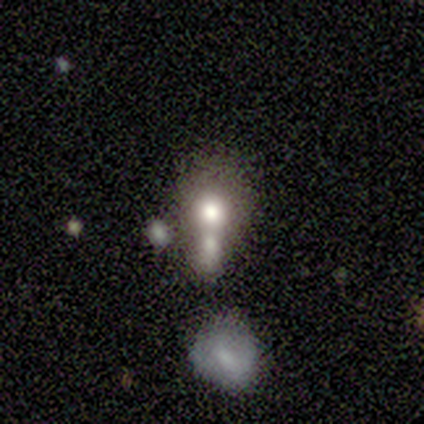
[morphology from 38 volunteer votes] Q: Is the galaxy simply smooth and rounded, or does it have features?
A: smooth — 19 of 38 (50%).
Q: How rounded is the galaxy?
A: round — 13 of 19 (68%).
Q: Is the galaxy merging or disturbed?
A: merger — 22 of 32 (69%).